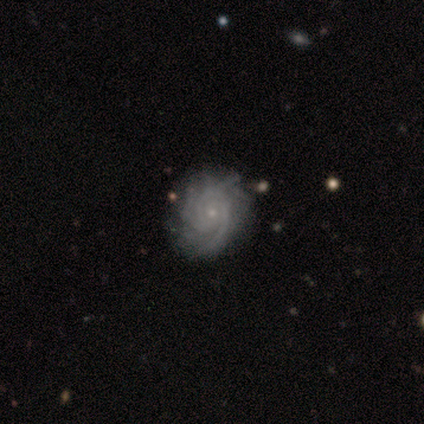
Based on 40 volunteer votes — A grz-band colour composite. It shows a featured or disk galaxy (90%) with no bar (75%), 3 (47%) tight (58%) spiral arms (100%) and a small central bulge (86%). Merging: none (54%).